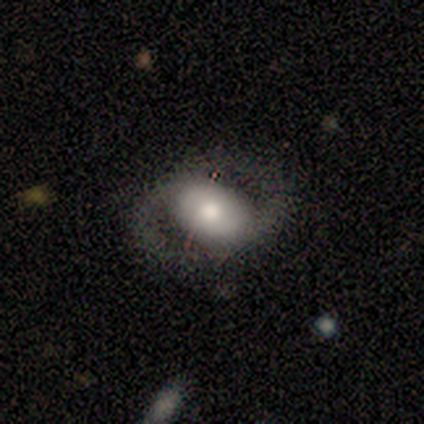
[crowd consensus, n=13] Overall: featured or disk (77%). Edge-on disk: no (100%). Bar: weak (50%; no 40%). Spiral arms: yes (50%, tied with no). Spiral arm count: 2 (100%). Spiral winding: tight (40%, tied with medium). Bulge size: moderate (50%; large 30%). Merging: none (69%).